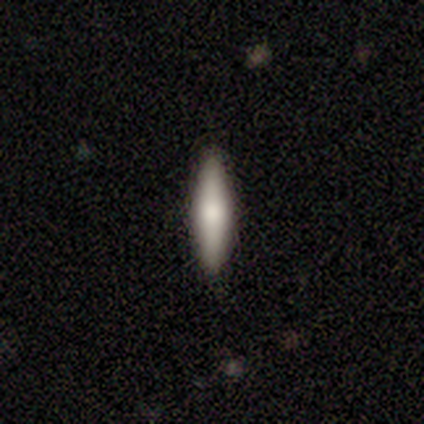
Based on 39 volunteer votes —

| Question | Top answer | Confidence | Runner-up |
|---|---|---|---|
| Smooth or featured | smooth | 64% | featured or disk (31%) |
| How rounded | cigar-shaped | 80% | in between (20%) |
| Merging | none | 95% | minor disturbance (3%) |